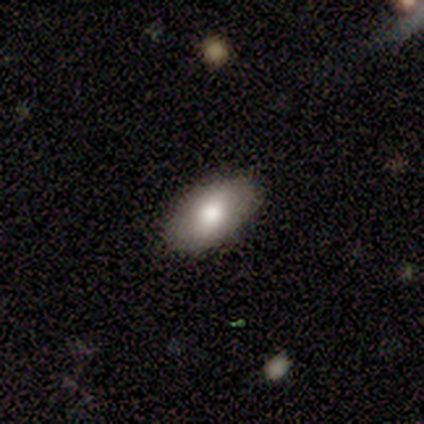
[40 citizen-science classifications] A smooth galaxy with no disk features (72%) that is in between round and cigar-shaped (90%).

Vote fractions:
- Smooth or featured? smooth: 72% / star or artifact: 18% / featured or disk: 10%
- How rounded? in between: 90% / round: 7% / cigar-shaped: 3%
- Merging? none: 88% / minor disturbance: 9% / major disturbance: 3% / merger: 0%